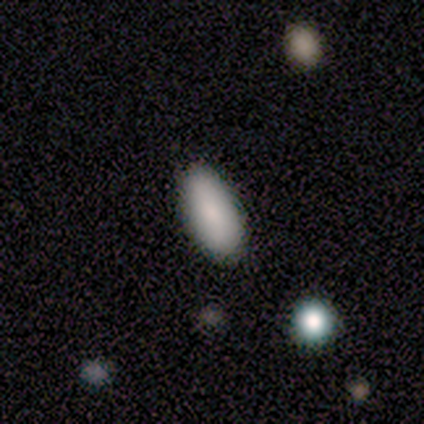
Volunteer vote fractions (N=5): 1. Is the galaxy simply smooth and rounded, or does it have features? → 80% smooth, 20% featured or disk, 0% star or artifact.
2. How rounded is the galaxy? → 100% in between, 0% round, 0% cigar-shaped.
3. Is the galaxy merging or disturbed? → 60% none, 40% minor disturbance, 0% major disturbance, 0% merger.